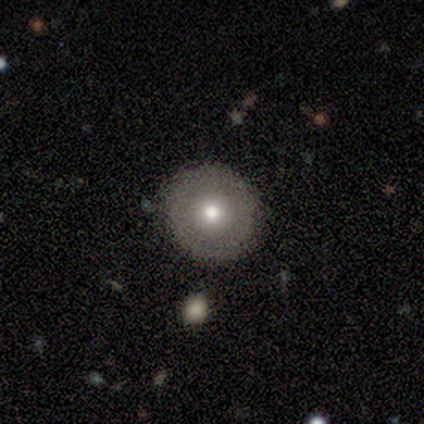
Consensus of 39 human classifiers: smooth-or-featured: smooth: 41% (tied) | featured or disk: 41% (tied) | star or artifact: 18%
  how-rounded: round: 88% | in between: 12% | cigar-shaped: 0%
  merging: none: 91% | minor disturbance: 6% | merger: 3% | major disturbance: 0%